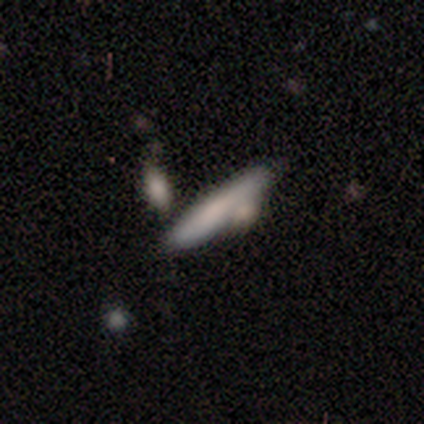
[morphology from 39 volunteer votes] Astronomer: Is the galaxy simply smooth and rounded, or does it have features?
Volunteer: smooth — 74%.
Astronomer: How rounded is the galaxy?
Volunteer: cigar-shaped — 97%.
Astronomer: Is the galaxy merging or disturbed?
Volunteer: none — 65%.